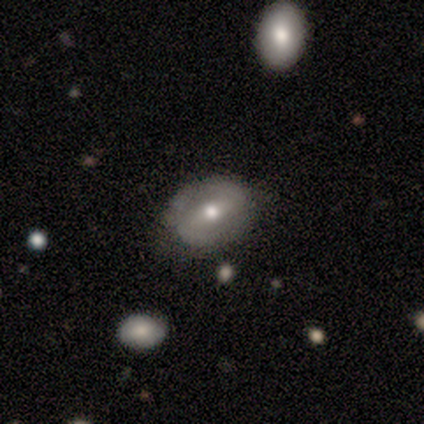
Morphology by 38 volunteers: featured or disk 63%, smooth 34%, star or artifact 3%. Down the decision tree: edge-on disk — no (100%); bar — strong (54%); spiral arms — yes (50%, tied with no); spiral arm count — 2 (92%); spiral winding — loose (42%); bulge size — moderate (71%); merging — none (65%).